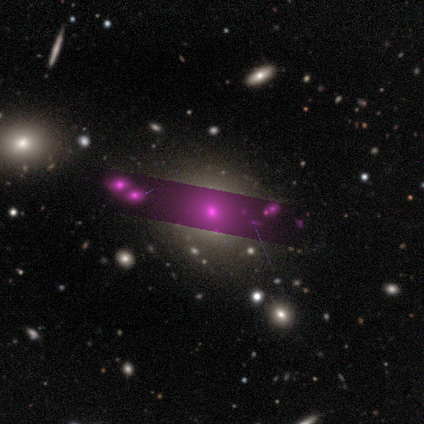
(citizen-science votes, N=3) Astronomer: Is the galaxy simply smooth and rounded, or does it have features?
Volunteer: star or artifact — 67%.